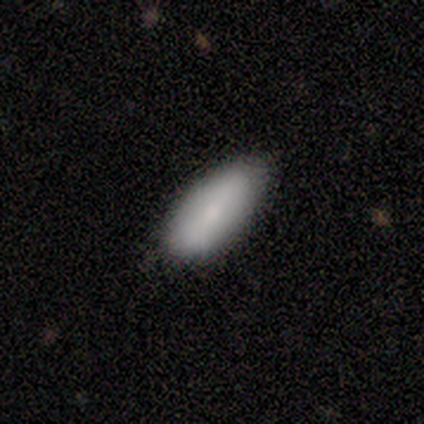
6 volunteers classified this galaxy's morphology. smooth 67%, featured or disk 17%, star or artifact 17%. Down the decision tree: how rounded — in between (100%); merging — none (60%).